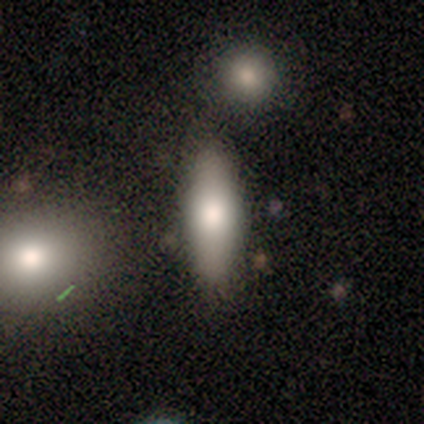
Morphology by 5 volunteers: A smooth galaxy with no disk features (100%) that is in between round and cigar-shaped (60%).

Vote fractions:
- Smooth or featured? smooth: 100% / featured or disk: 0% / star or artifact: 0%
- How rounded? in between: 60% / cigar-shaped: 40% / round: 0%
- Merging? none: 100% / minor disturbance: 0% / major disturbance: 0% / merger: 0%